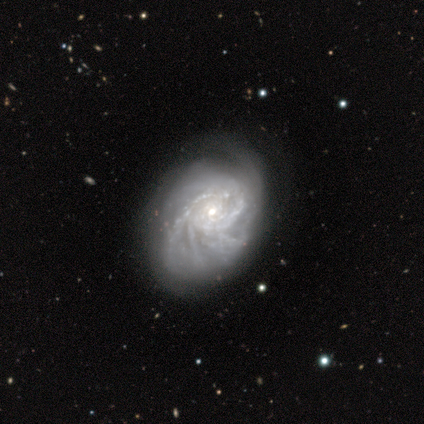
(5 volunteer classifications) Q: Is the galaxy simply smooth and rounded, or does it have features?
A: featured or disk — 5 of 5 (100%).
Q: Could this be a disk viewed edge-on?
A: no — 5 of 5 (100%).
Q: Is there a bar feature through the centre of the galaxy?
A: no — 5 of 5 (100%).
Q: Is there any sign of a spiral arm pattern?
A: yes — 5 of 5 (100%).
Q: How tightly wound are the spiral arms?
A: tight — 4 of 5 (80%).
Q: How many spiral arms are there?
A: can't tell — 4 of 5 (80%).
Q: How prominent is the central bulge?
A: small — 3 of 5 (60%).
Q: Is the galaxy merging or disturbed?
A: major disturbance — 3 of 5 (60%).